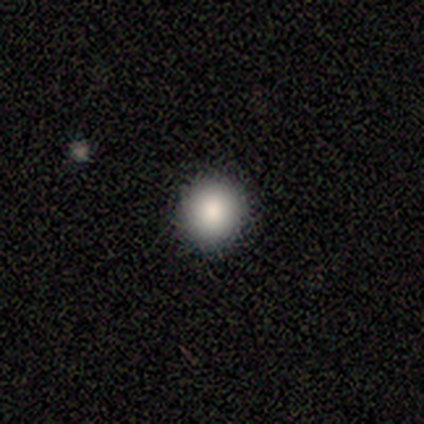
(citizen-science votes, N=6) This is clearly a smooth galaxy (83%). How rounded: clearly round (100%). Merging: clearly none (100%).